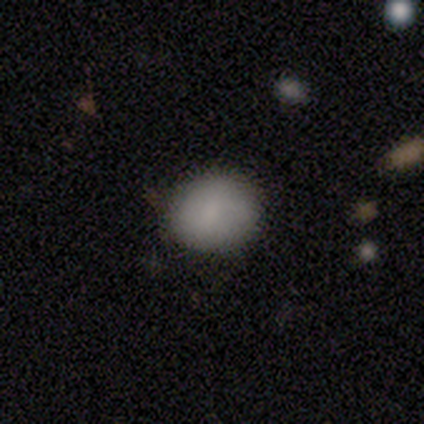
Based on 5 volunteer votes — Smooth or featured? 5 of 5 (100%) said smooth. How rounded? 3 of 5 (60%) said round. Merging? 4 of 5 (80%) said none.